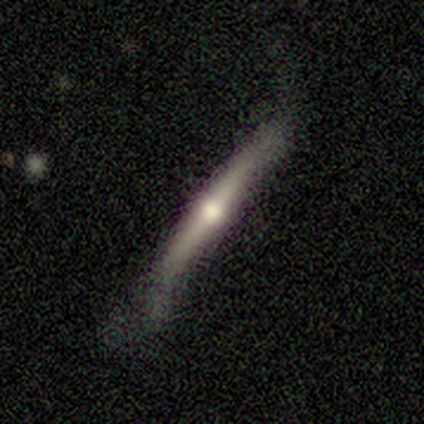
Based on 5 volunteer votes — A featured or disk galaxy (100%) viewed edge-on (100%) with no central bulge (40%, tied with rounded).

Vote fractions:
- Smooth or featured? featured or disk: 100% / smooth: 0% / star or artifact: 0%
- Edge-on disk? yes: 100% / no: 0%
- Edge-on bulge? none: 40% (tied) / rounded: 40% (tied) / boxy: 20%
- Merging? none: 60% / minor disturbance: 40% / major disturbance: 0% / merger: 0%